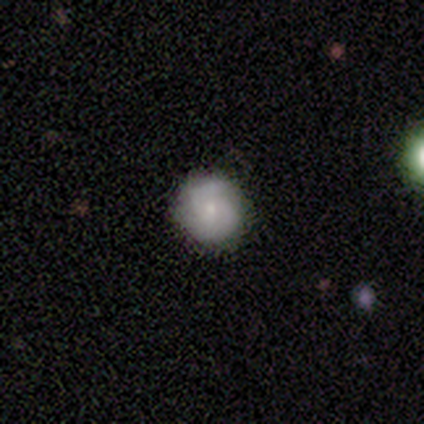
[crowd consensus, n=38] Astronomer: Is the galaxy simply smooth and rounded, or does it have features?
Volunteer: smooth — 45%, tied with featured or disk at 45%.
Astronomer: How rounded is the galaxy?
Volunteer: round — 100%.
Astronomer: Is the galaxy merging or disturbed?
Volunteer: none — 82%.